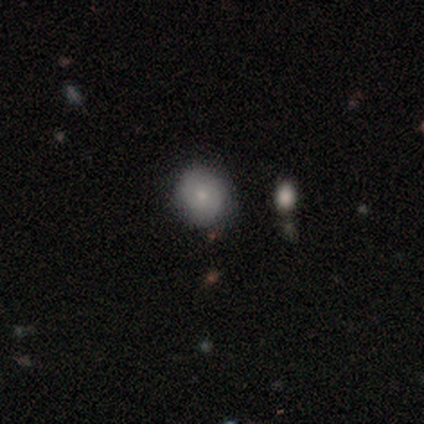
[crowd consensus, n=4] This is likely a smooth galaxy (75%). How rounded: clearly round (100%). Merging: possibly none (50%, tied with minor disturbance).